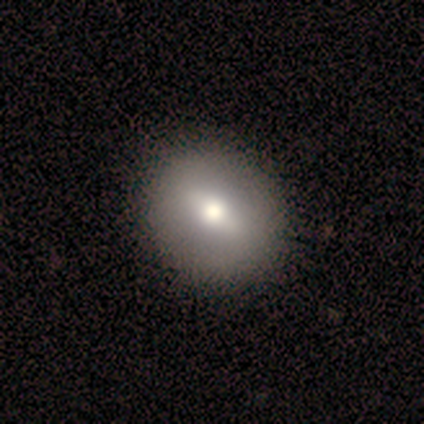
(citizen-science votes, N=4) smooth_or_featured: smooth (p=1.00)
how_rounded: in between (p=0.75) [alt: round p=0.25]
merging: none (p=0.75) [alt: minor disturbance p=0.25]